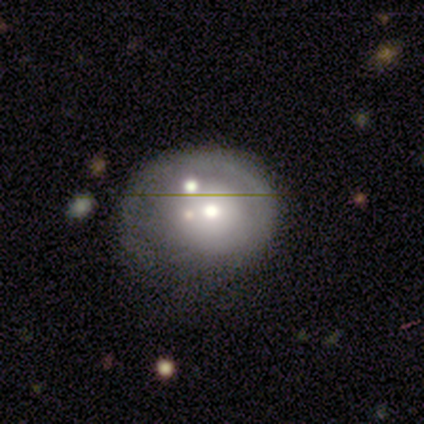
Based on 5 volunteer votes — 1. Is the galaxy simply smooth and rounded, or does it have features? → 80% featured or disk, 20% smooth, 0% star or artifact.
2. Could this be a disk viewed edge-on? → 100% no, 0% yes.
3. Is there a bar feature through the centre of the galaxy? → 100% no, 0% strong, 0% weak.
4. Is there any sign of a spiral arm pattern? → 100% no, 0% yes.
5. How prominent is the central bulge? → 100% moderate, 0% dominant, 0% large, 0% small, 0% none.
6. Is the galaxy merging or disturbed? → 40% none (tied), 40% merger (tied), 20% minor disturbance, 0% major disturbance.